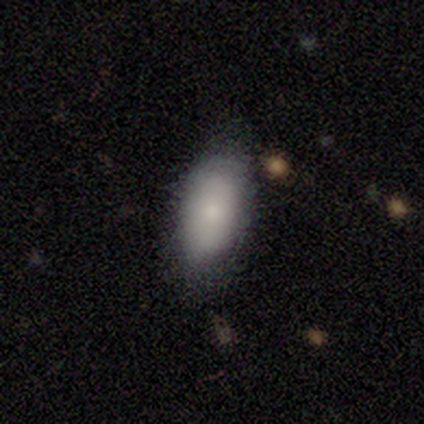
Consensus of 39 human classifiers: Smooth or featured: smooth — 74% (featured or disk — 18%)
How rounded: in between — 97% (cigar-shaped — 3%)
Merging: none — 69% (minor disturbance — 22%)